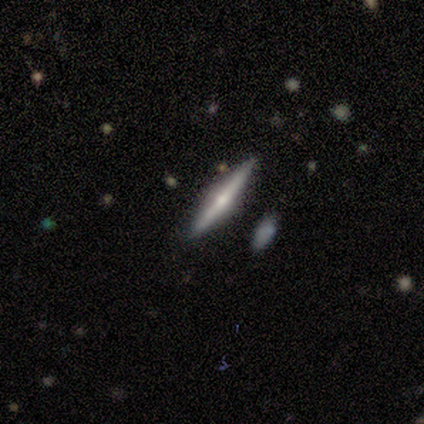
featured or disk 68%, smooth 26%, star or artifact 5%. Down the decision tree: edge-on disk — yes (96%); edge-on bulge — rounded (92%); merging — none (83%).